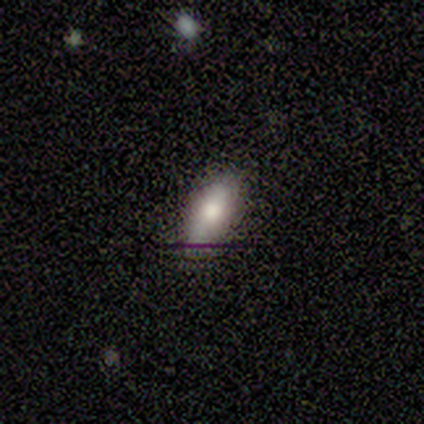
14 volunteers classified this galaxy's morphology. smooth-or-featured: smooth: 64% | featured or disk: 29% | star or artifact: 7%
  how-rounded: in between: 89% | cigar-shaped: 11% | round: 0%
  merging: none: 100% | minor disturbance: 0% | major disturbance: 0% | merger: 0%